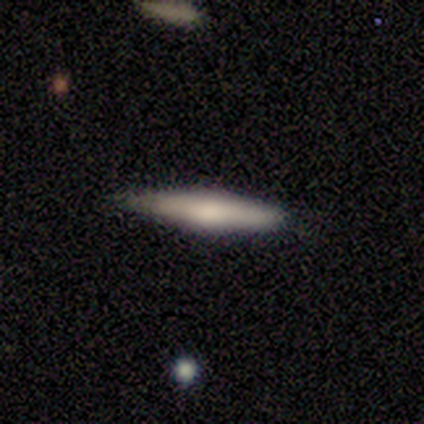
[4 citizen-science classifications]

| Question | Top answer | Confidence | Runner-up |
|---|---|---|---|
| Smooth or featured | smooth | 75% | featured or disk (25%) |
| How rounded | cigar-shaped | 100% | — |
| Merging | none | 50% | tied: minor disturbance (50%) |